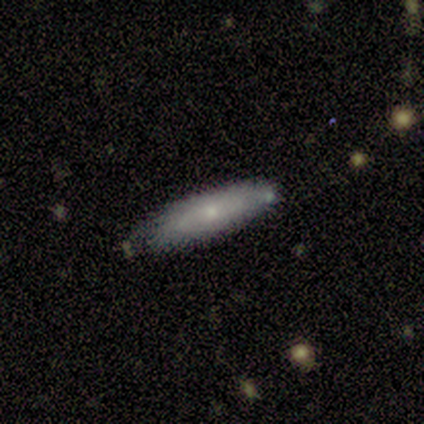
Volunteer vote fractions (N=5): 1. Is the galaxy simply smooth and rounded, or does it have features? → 60% smooth, 40% featured or disk, 0% star or artifact.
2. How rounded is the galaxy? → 67% in between, 33% cigar-shaped, 0% round.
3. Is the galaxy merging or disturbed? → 80% none, 20% minor disturbance, 0% major disturbance, 0% merger.